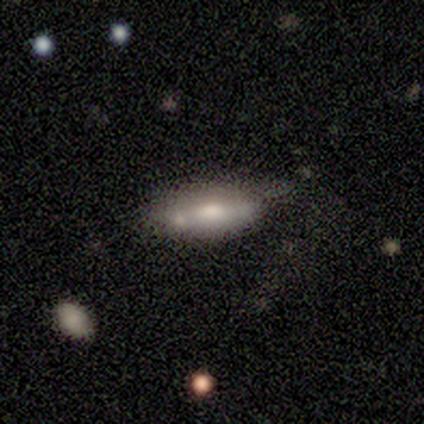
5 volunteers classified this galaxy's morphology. A smooth galaxy with no disk features (60%) that is in between round and cigar-shaped (67%).

Vote fractions:
- Smooth or featured? smooth: 60% / featured or disk: 40% / star or artifact: 0%
- How rounded? in between: 67% / cigar-shaped: 33% / round: 0%
- Merging? none: 40% (tied) / merger: 40% (tied) / minor disturbance: 20% / major disturbance: 0%